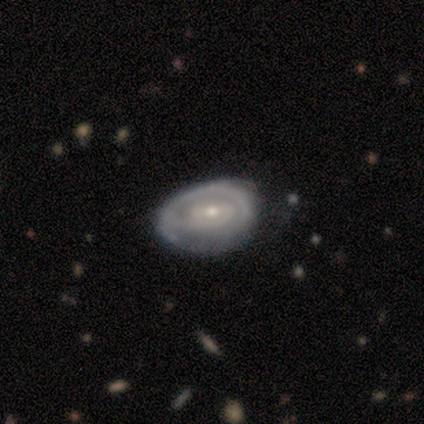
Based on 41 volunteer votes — Morphology: type=featured or disk (76%); edge-on=no (97%); bar=no (53%); spiral arms=yes (73%); winding=tight (55%); arm count=can't tell (36%); bulge=small (63%); merging=none (61%).